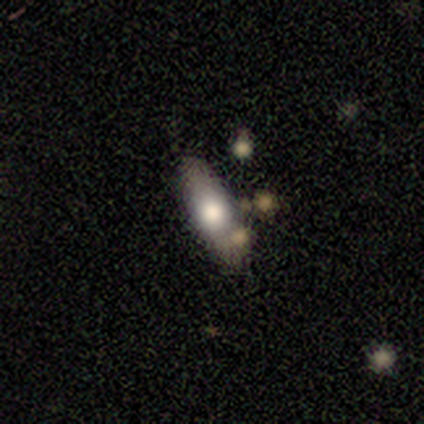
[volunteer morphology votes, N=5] Q: Smooth or featured?
A: smooth (80%); runner-up: featured or disk (20%)
Q: How rounded?
A: in between (50%); tied with: cigar-shaped (50%)
Q: Merging?
A: none (60%); runner-up: minor disturbance (40%)